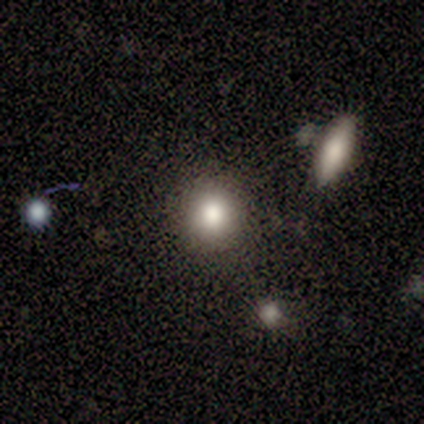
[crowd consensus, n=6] smooth-or-featured: smooth: 50% (tied) | star or artifact: 50% (tied) | featured or disk: 0%
  how-rounded: round: 100% | in between: 0% | cigar-shaped: 0%
  merging: none: 67% | minor disturbance: 33% | major disturbance: 0% | merger: 0%